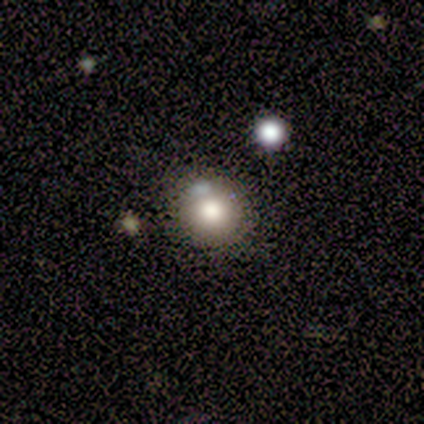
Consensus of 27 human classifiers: A smooth galaxy with no disk features (59%) that is round (94%). Merging: none (86%).